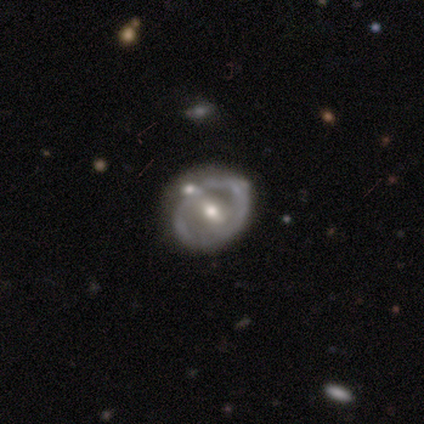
Smooth or featured?
  - featured or disk: 76% *
  - smooth: 17%
  - star or artifact: 7%
Edge-on disk?
  - no: 92% *
  - yes: 8%
Bar?
  - weak: 54% *
  - no: 36%
  - strong: 10%
Spiral arms?
  - no: 66% *
  - yes: 34%
Bulge size?
  - moderate: 59% *
  - small: 26%
  - none: 10%
  - large: 3%
  - dominant: 2%
Merging?
  - none: 54% *
  - minor disturbance: 23%
  - merger: 14%
  - major disturbance: 9%